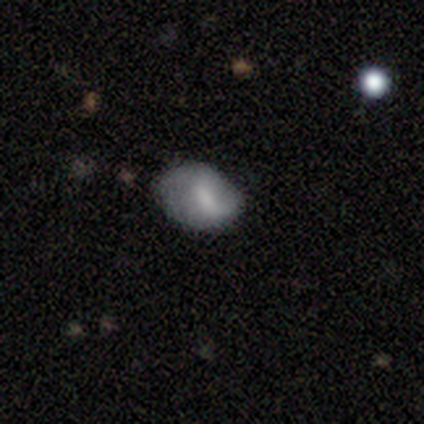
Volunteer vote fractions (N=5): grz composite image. It shows a smooth galaxy with no disk features (40%, tied with featured or disk) that is round (50%, tied with in between). Merging: none (50%, tied with minor disturbance).